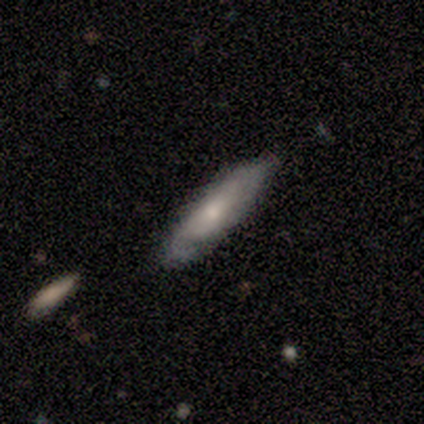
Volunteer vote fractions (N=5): A smooth galaxy with no disk features (60%) that is cigar-shaped (67%). Merging: none (60%).